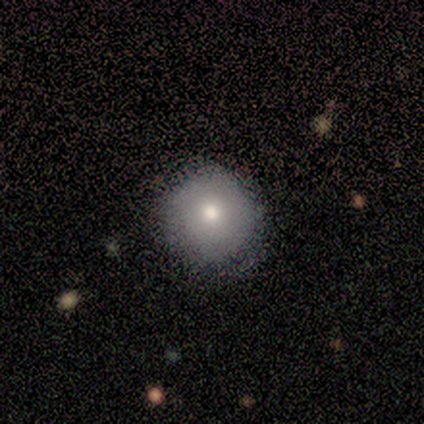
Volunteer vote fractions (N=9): smooth-or-featured: smooth: 67% | featured or disk: 22% | star or artifact: 11%
  how-rounded: round: 100% | in between: 0% | cigar-shaped: 0%
  merging: none: 88% | minor disturbance: 12% | major disturbance: 0% | merger: 0%